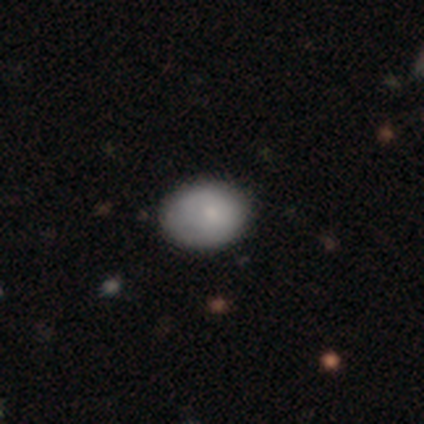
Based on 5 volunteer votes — Volunteers were most divided on "how rounded": in between: 80%, round: 20%, cigar-shaped: 0%. More confident: smooth or featured — smooth (100%); merging — none (100%).